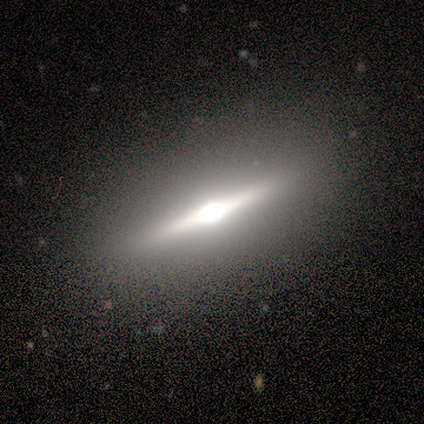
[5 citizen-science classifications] smooth-or-featured: featured or disk: 60% | smooth: 40% | star or artifact: 0%
  disk-edge-on: yes: 100% | no: 0%
    edge-on-bulge: rounded: 100% | boxy: 0% | none: 0%
  merging: none: 100% | minor disturbance: 0% | major disturbance: 0% | merger: 0%